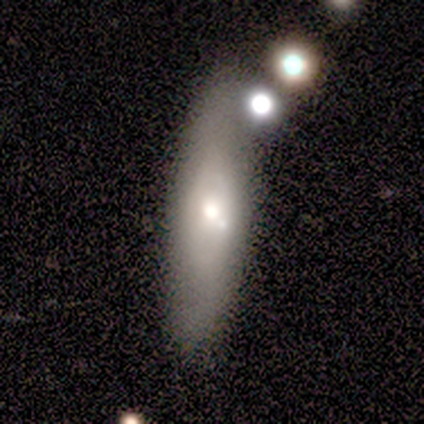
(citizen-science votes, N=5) Smooth or featured?
  - featured or disk: 80% *
  - smooth: 20%
  - star or artifact: 0%
Edge-on disk?
  - no: 100% *
  - yes: 0%
Bar?
  - weak: 50% * (tied)
  - no: 50% * (tied)
  - strong: 0%
Spiral arms?
  - yes: 50% * (tied)
  - no: 50% * (tied)
Spiral winding?
  - medium: 50% * (tied)
  - loose: 50% * (tied)
  - tight: 0%
Spiral arm count?
  - 2: 50% * (tied)
  - can't tell: 50% * (tied)
  - 1: 0%
  - 3: 0%
  - 4: 0%
  - more than 4: 0%
Bulge size?
  - moderate: 50% *
  - large: 25%
  - small: 25%
  - dominant: 0%
  - none: 0%
Merging?
  - none: 40% * (tied)
  - minor disturbance: 40% * (tied)
  - merger: 20%
  - major disturbance: 0%